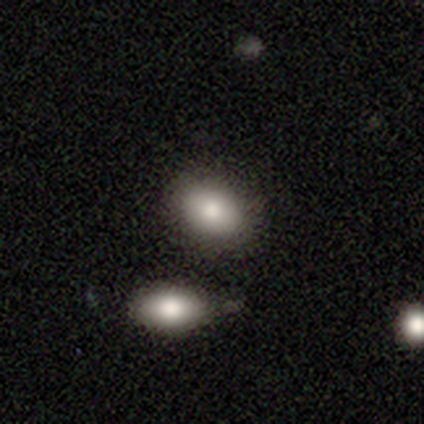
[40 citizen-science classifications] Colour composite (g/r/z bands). It shows a smooth galaxy with no disk features (90%) that is in between round and cigar-shaped (72%). Merging: merger (57%).